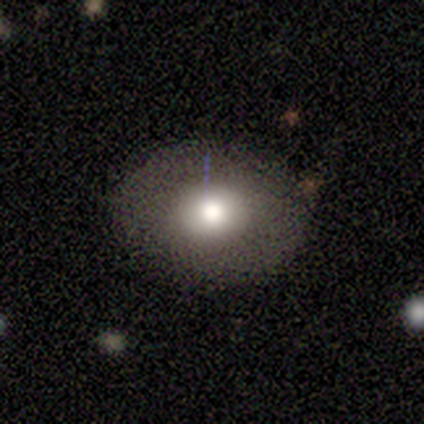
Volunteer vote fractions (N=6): Smooth or featured? 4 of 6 (67%) said smooth. How rounded? 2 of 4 (50%, tied with in between) said round. Merging? 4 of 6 (67%) said none.